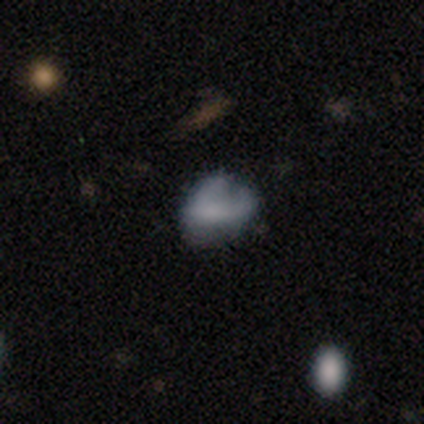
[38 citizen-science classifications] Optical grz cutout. It shows a smooth galaxy with no disk features (53%) that is in between round and cigar-shaped (70%). Merging: none (38%).